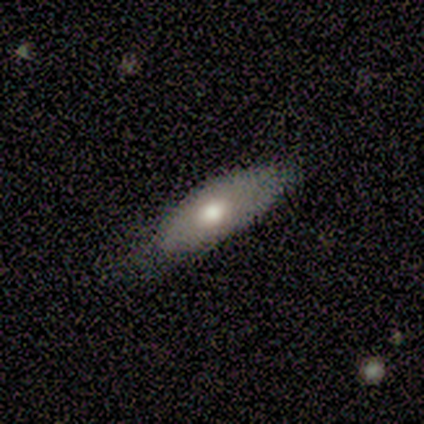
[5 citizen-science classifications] This is likely a smooth galaxy (60%). How rounded: clearly in between (100%). Merging: likely none (75%).